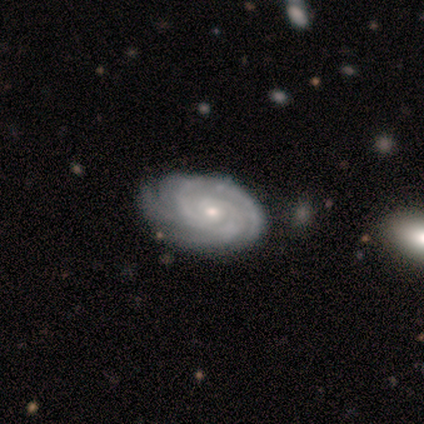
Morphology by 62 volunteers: smooth_or_featured: featured or disk (p=0.95) [alt: smooth p=0.03]
disk_edge_on: no (p=0.98) [alt: yes p=0.02]
bar: no (p=0.78) [alt: weak p=0.19]
has_spiral_arms: yes (p=1.00)
spiral_winding: tight (p=0.86) [alt: medium p=0.09]
spiral_arm_count: 3 (p=0.33) [alt: 4 p=0.22]
bulge_size: small (p=0.69) [alt: moderate p=0.31]
merging: none (p=0.72) [alt: minor disturbance p=0.23]